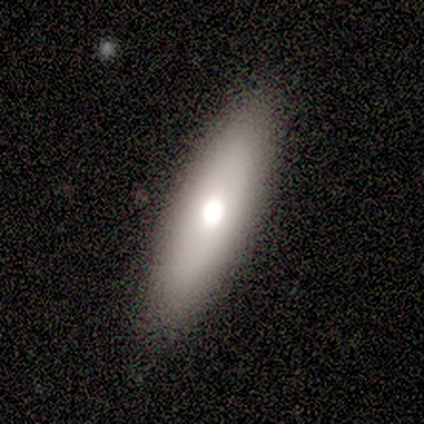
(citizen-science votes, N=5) smooth 60%, featured or disk 40%, star or artifact 0%. Down the decision tree: how rounded — in between (67%); merging — none (100%).